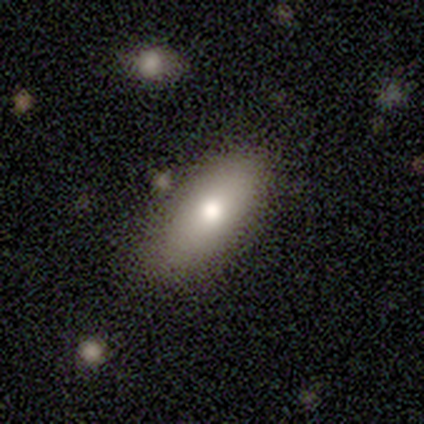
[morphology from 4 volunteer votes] Overall: smooth (50%, tied with featured or disk). How rounded: in between (100%). Merging: none (50%, tied with minor disturbance).